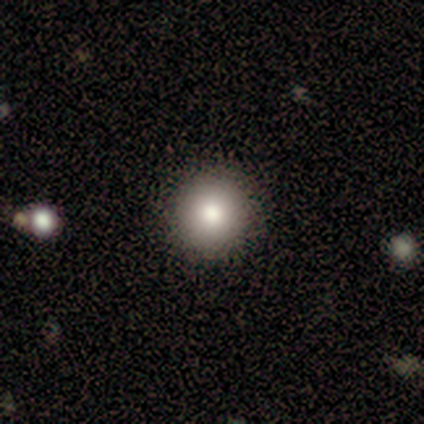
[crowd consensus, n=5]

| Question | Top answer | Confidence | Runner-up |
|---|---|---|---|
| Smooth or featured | smooth | 80% | featured or disk (20%) |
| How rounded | round | 100% | — |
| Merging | none | 100% | — |